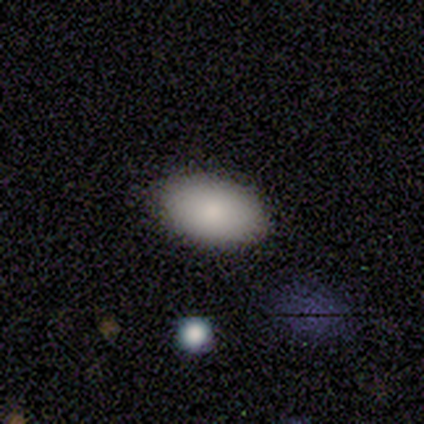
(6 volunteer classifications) Q: Smooth or featured?
A: smooth (100%)
Q: How rounded?
A: in between (100%)
Q: Merging?
A: none (83%); runner-up: minor disturbance (17%)